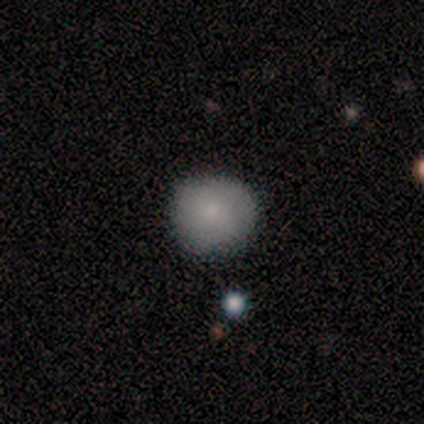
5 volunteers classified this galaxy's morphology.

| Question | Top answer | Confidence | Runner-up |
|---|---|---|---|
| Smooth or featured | smooth | 80% | star or artifact (20%) |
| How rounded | round | 100% | — |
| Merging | none | 75% | minor disturbance (25%) |